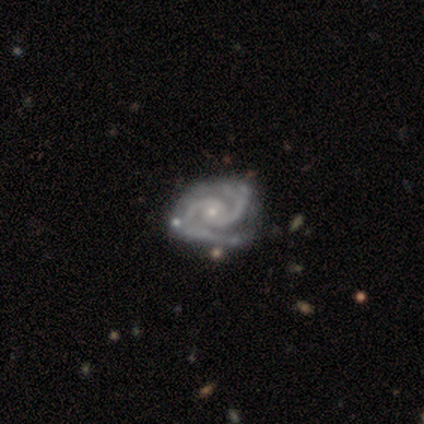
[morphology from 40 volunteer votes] Overall: featured or disk (98%). Edge-on disk: no (95%). Bar: no (86%). Spiral arms: yes (100%). Spiral arm count: 2 (89%). Spiral winding: tight (62%; medium 32%). Bulge size: small (76%). Merging: none (32%; minor disturbance 22%).